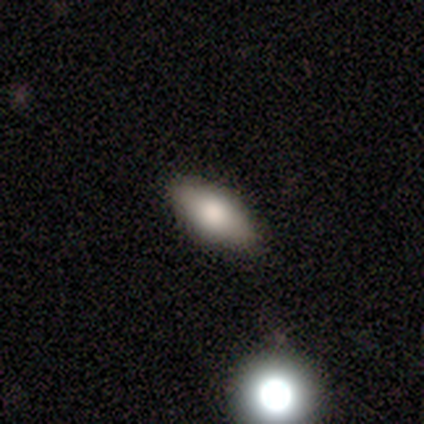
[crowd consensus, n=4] A smooth galaxy with no disk features (100%) that is in between round and cigar-shaped (75%). Merging: none (100%).